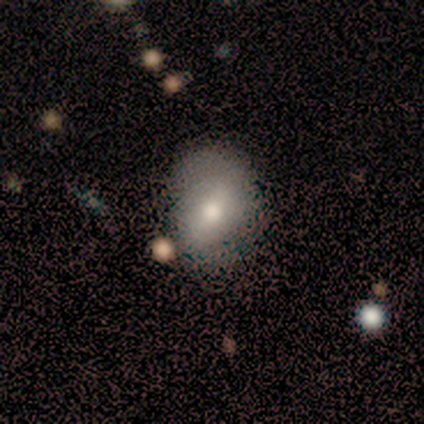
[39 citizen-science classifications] Smooth or featured? smooth (54%)
How rounded? in between (67%)
Merging? none (37%)